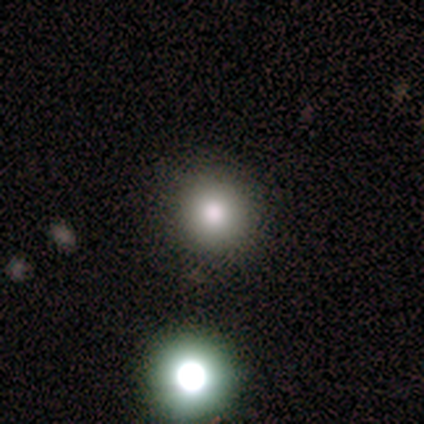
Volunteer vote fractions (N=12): smooth-or-featured: smooth: 100% | featured or disk: 0% | star or artifact: 0%
  how-rounded: round: 75% | in between: 25% | cigar-shaped: 0%
  merging: none: 83% | minor disturbance: 8% | merger: 8% | major disturbance: 0%